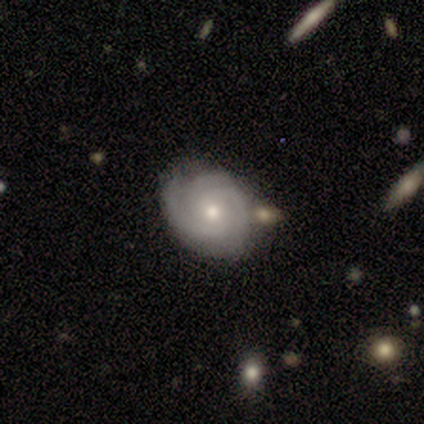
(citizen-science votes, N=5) A featured or disk galaxy (60%) with no bar (100%), 2 (33%, tied with 3 and can't tell) tight (67%) spiral arms (100%) and a moderate central bulge (67%). Merging: none (100%).